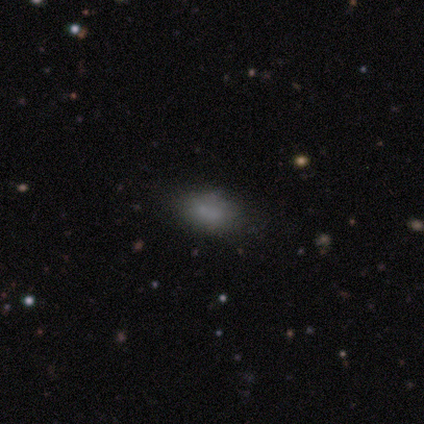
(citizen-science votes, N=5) A smooth galaxy with no disk features (100%) that is in between round and cigar-shaped (60%).

Vote fractions:
- Smooth or featured? smooth: 100% / featured or disk: 0% / star or artifact: 0%
- How rounded? in between: 60% / round: 20% / cigar-shaped: 20%
- Merging? none: 100% / minor disturbance: 0% / major disturbance: 0% / merger: 0%